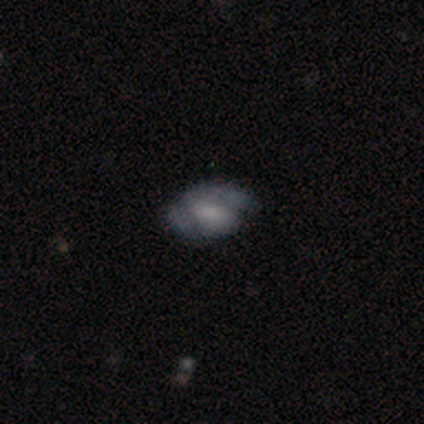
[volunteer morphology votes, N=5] smooth-or-featured: featured or disk: 60% | smooth: 40% | star or artifact: 0%
  disk-edge-on: no: 100% | yes: 0%
    bar: weak: 67% | no: 33% | strong: 0%
    has-spiral-arms: yes: 67% | no: 33%
      spiral-winding: medium: 50% (tied) | loose: 50% (tied) | tight: 0%
      spiral-arm-count: 2: 100% | 1: 0% | 3: 0% | 4: 0% | more than 4: 0% | can't tell: 0%
    bulge-size: large: 67% | none: 33% | dominant: 0% | moderate: 0% | small: 0%
  merging: none: 40% (tied) | minor disturbance: 40% (tied) | major disturbance: 20% | merger: 0%